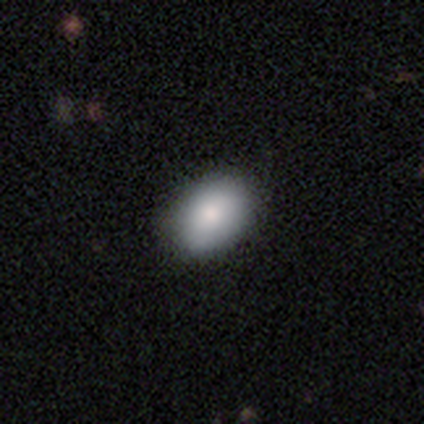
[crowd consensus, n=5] A smooth galaxy with no disk features (100%) that is in between round and cigar-shaped (80%).

Vote fractions:
- Smooth or featured? smooth: 100% / featured or disk: 0% / star or artifact: 0%
- How rounded? in between: 80% / round: 20% / cigar-shaped: 0%
- Merging? none: 100% / minor disturbance: 0% / major disturbance: 0% / merger: 0%